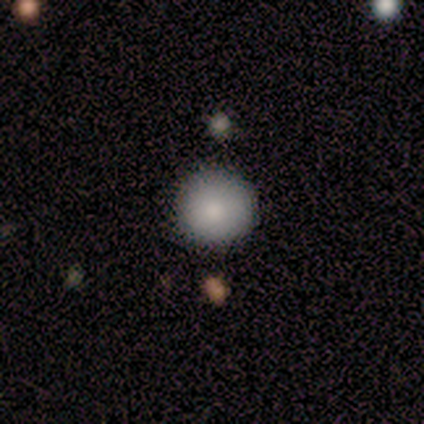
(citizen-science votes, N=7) Overall: smooth (86%). How rounded: round (100%). Merging: none (100%).